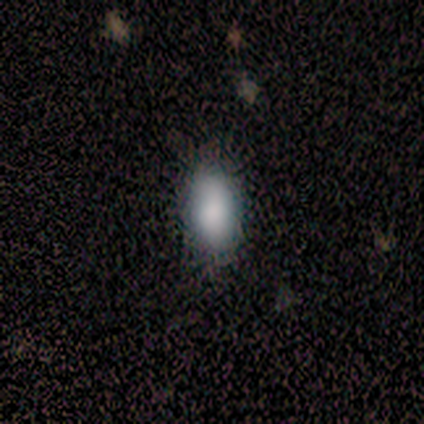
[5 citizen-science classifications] smooth-or-featured: smooth: 100% | featured or disk: 0% | star or artifact: 0%
  how-rounded: in between: 100% | round: 0% | cigar-shaped: 0%
  merging: none: 80% | minor disturbance: 20% | major disturbance: 0% | merger: 0%